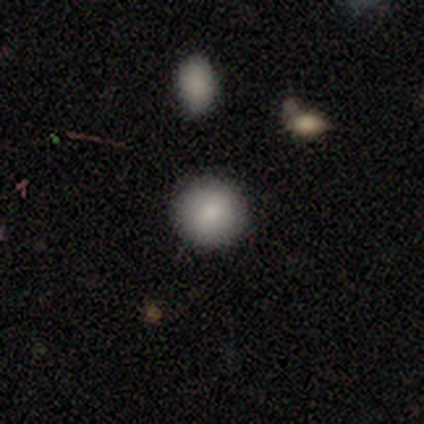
Q: Smooth or featured?
A: smooth (80%); runner-up: featured or disk (20%)
Q: How rounded?
A: round (75%); runner-up: in between (25%)
Q: Merging?
A: none (80%); runner-up: major disturbance (20%)